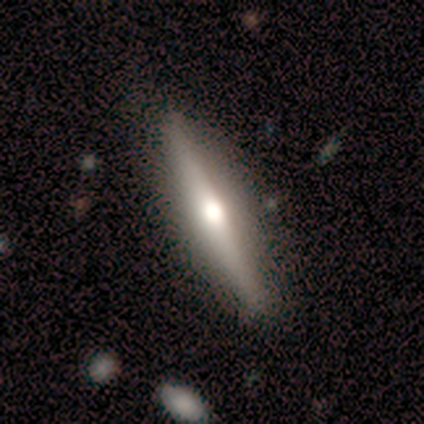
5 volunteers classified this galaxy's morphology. Volunteers were most divided on "smooth or featured": featured or disk: 60%, smooth: 40%, star or artifact: 0%. More confident: edge-on bulge — rounded (100%); merging — none (100%); edge-on disk — yes (67%).